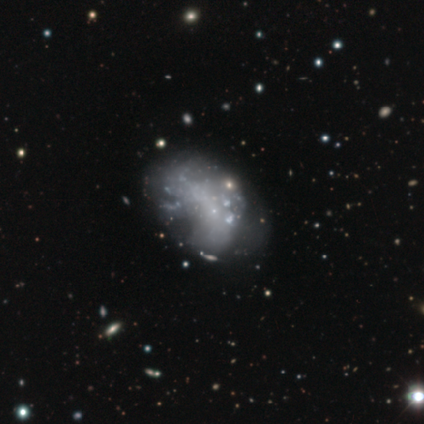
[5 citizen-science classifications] Smooth or featured: featured or disk — 60% (smooth — 20%)
Edge-on disk: no — 100%
Bar: no — 100%
Spiral arms: no — 67% (yes — 33%)
Bulge size: none — 100%
Merging: none — 50% (tied with major disturbance — 50%)